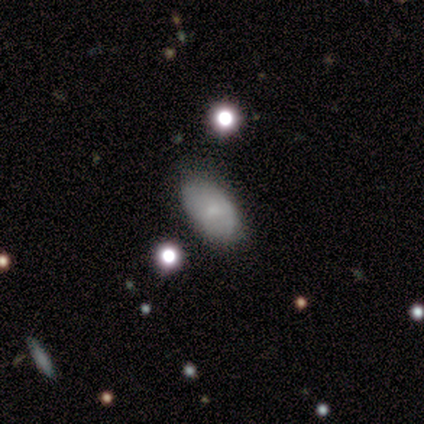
Q: Smooth or featured?
A: smooth (75%); runner-up: featured or disk (25%)
Q: How rounded?
A: in between (100%)
Q: Merging?
A: none (75%); runner-up: major disturbance (25%)